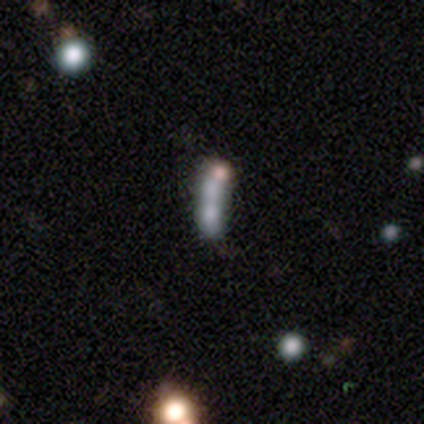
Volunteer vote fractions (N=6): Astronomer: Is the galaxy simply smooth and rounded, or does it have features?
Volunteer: smooth — 33%, tied with featured or disk and star or artifact at 33%.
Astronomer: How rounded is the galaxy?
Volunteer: cigar-shaped — 100%.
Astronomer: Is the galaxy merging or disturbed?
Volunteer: none — 50%.